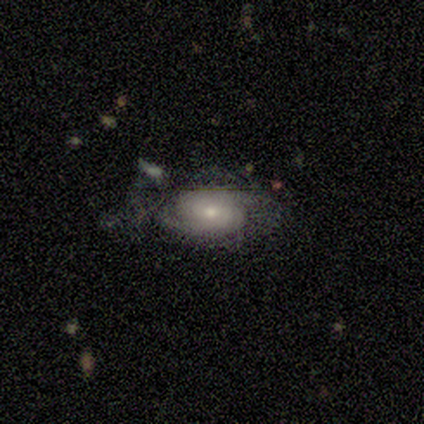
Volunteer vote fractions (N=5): A featured or disk galaxy (60%) with no bar (100%), no spiral arms (67%) and a moderate central bulge (100%). Merging: major disturbance (40%).